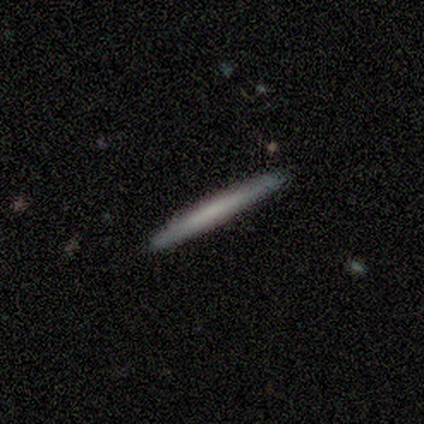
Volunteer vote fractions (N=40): smooth_or_featured: smooth (p=0.57) [alt: featured or disk p=0.40]
how_rounded: cigar-shaped (p=0.96) [alt: in between p=0.04]
merging: none (p=0.92) [alt: minor disturbance p=0.03]